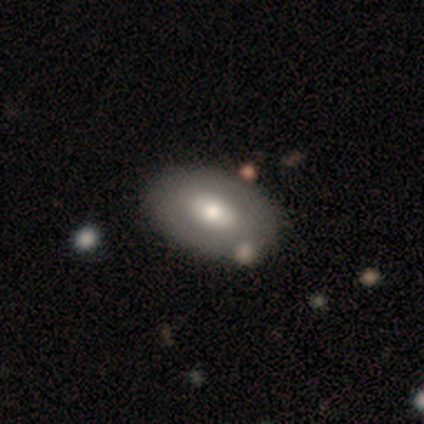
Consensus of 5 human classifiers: A smooth galaxy with no disk features (40%, tied with featured or disk) that is in between round and cigar-shaped (100%).

Vote fractions:
- Smooth or featured? smooth: 40% (tied) / featured or disk: 40% (tied) / star or artifact: 20%
- How rounded? in between: 100% / round: 0% / cigar-shaped: 0%
- Merging? none: 100% / minor disturbance: 0% / major disturbance: 0% / merger: 0%